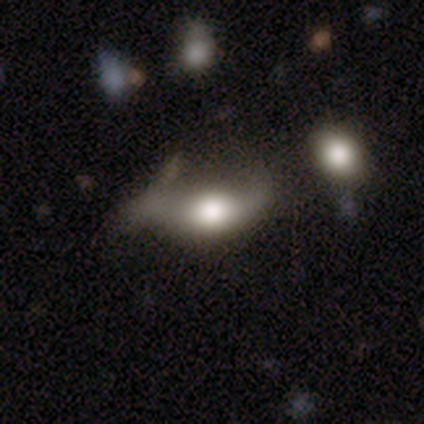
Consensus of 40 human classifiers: This is possibly a smooth galaxy (55%). How rounded: clearly in between (86%). Merging: marginally major disturbance (30%).